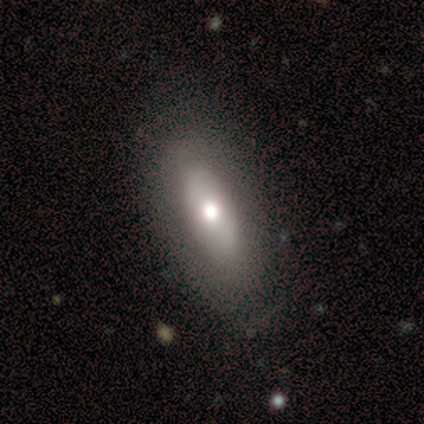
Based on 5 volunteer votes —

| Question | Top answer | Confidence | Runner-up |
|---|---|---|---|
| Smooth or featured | featured or disk | 100% | — |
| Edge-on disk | no | 80% | yes (20%) |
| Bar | no | 100% | — |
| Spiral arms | no | 100% | — |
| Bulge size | moderate | 75% | large (25%) |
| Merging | none | 100% | — |